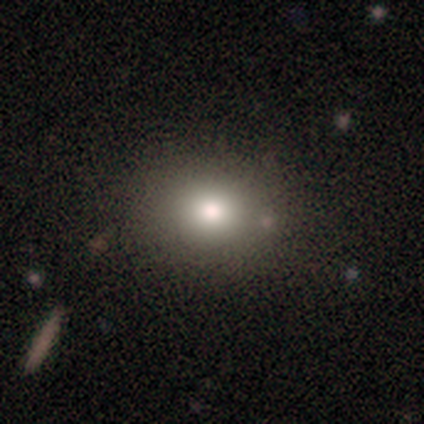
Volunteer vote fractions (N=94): Volunteers were most divided on "how rounded": round: 60%, in between: 40%, cigar-shaped: 0%. More confident: merging — none (89%); smooth or featured — smooth (87%).